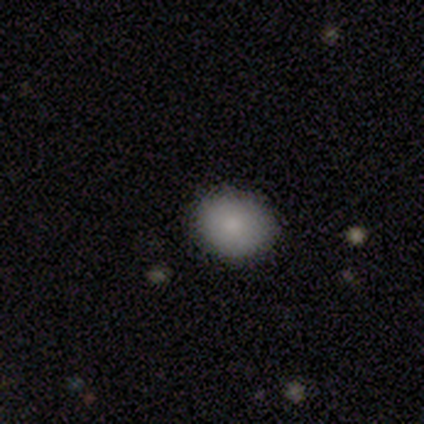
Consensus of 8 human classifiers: smooth_or_featured: smooth (p=0.88) [alt: featured or disk p=0.12]
how_rounded: round (p=0.57) [alt: in between p=0.43]
merging: none (p=1.00)